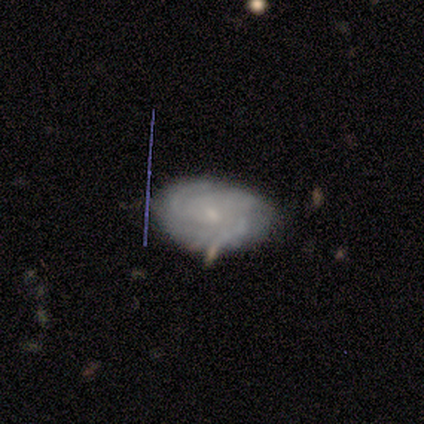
This is marginally a smooth galaxy (40%, tied with featured or disk). How rounded: clearly in between (100%). Merging: likely minor disturbance (75%).